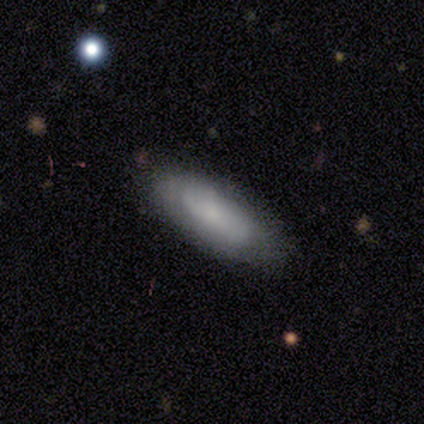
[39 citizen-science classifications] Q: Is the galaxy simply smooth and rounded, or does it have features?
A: smooth — 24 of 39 (62%).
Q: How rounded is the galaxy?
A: in between — 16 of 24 (67%).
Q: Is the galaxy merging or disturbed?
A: none — 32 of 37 (86%).